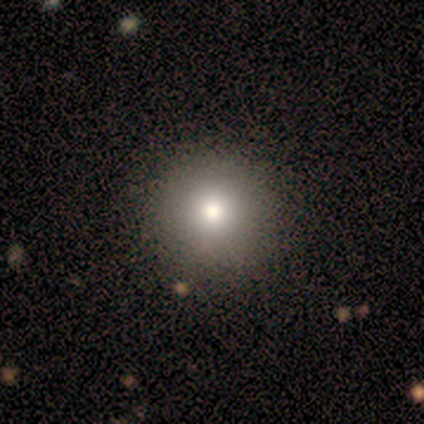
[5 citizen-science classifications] Morphology: type=star or artifact (60%).